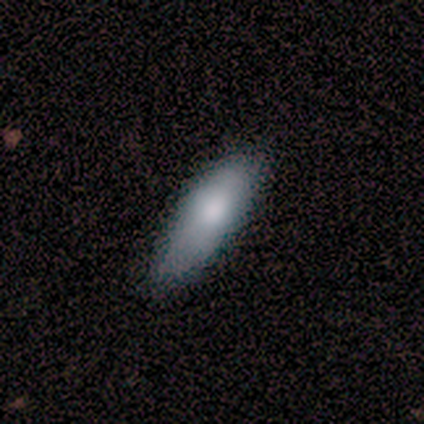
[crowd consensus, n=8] Volunteers were most divided on "how rounded": in between: 57%, cigar-shaped: 43%, round: 0%. More confident: merging — none (100%); smooth or featured — smooth (88%).